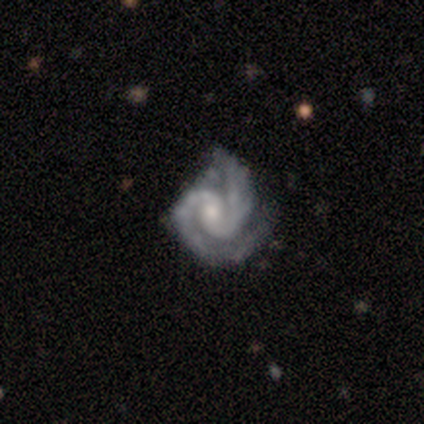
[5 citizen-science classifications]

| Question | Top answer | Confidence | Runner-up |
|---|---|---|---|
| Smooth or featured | featured or disk | 60% | star or artifact (40%) |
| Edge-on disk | no | 100% | — |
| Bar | strong | 33% | tied: weak (33%), no (33%) |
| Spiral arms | yes | 100% | — |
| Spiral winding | tight | 67% | medium (33%) |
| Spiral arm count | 2 | 67% | 3 (33%) |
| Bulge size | small | 100% | — |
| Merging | none | 67% | minor disturbance (33%) |